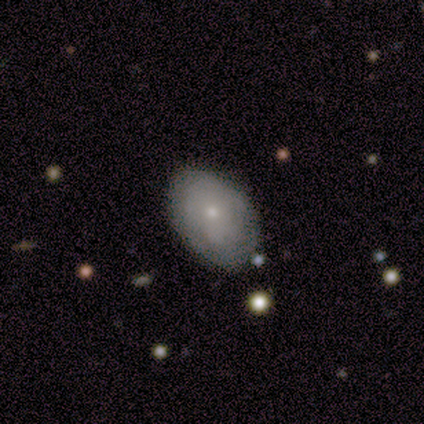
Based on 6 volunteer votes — smooth 83%, featured or disk 17%, star or artifact 0%. Down the decision tree: how rounded — in between (80%); merging — none (67%).